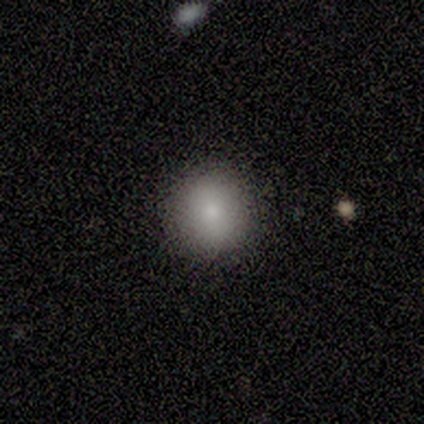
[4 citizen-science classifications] Smooth or featured?
  - smooth: 75% *
  - star or artifact: 25%
  - featured or disk: 0%
How rounded?
  - round: 100% *
  - in between: 0%
  - cigar-shaped: 0%
Merging?
  - none: 100% *
  - minor disturbance: 0%
  - major disturbance: 0%
  - merger: 0%